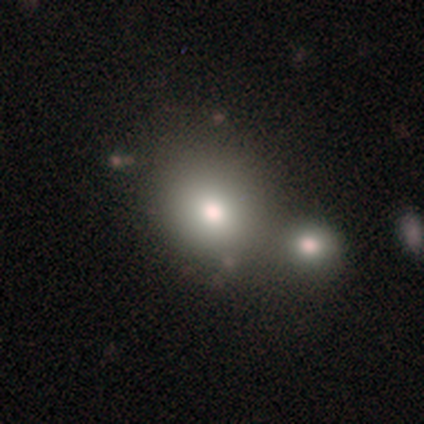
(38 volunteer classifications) This appears to be a smooth galaxy with no disk features (68%) that is round (85%). Merging: merger (73%).